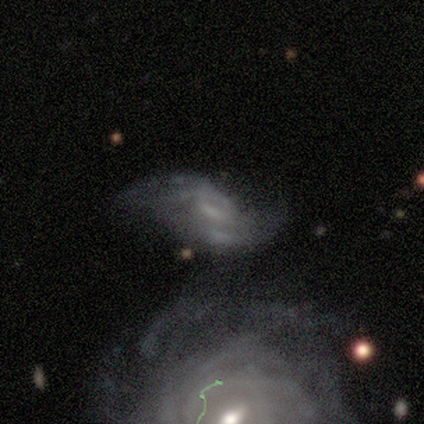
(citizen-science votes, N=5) smooth_or_featured: featured or disk (p=0.80) [alt: star or artifact p=0.20]
disk_edge_on: no (p=1.00)
bar: weak (p=0.75) [alt: no p=0.25]
has_spiral_arms: yes (p=0.50) [tied with: no p=0.50]
spiral_winding: loose (p=1.00)
spiral_arm_count: 2 (p=1.00)
bulge_size: none (p=0.75) [alt: large p=0.25]
merging: minor disturbance (p=0.50) [tied with: major disturbance p=0.50]